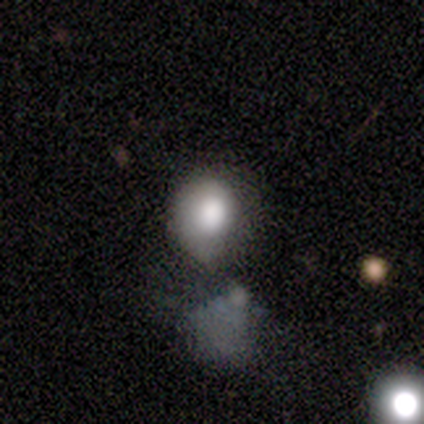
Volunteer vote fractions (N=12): smooth_or_featured: smooth (p=0.75) [alt: featured or disk p=0.17]
how_rounded: round (p=0.67) [alt: in between p=0.22]
merging: minor disturbance (p=0.45) [alt: none p=0.27]